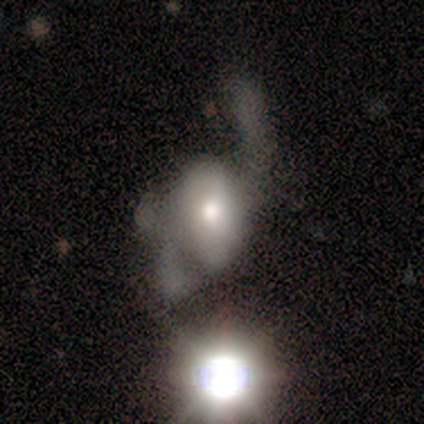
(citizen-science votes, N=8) smooth-or-featured: featured or disk: 75% | smooth: 25% | star or artifact: 0%
  disk-edge-on: no: 100% | yes: 0%
    bar: no: 100% | strong: 0% | weak: 0%
    has-spiral-arms: yes: 67% | no: 33%
      spiral-winding: loose: 100% | tight: 0% | medium: 0%
      spiral-arm-count: 2: 50% (tied) | can't tell: 50% (tied) | 1: 0% | 3: 0% | 4: 0% | more than 4: 0%
    bulge-size: moderate: 83% | small: 17% | dominant: 0% | large: 0% | none: 0%
  merging: major disturbance: 50% | none: 38% | merger: 12% | minor disturbance: 0%